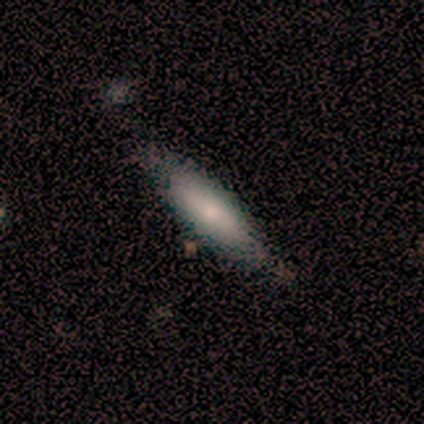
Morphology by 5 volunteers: This is clearly a featured or disk galaxy (80%). It is possibly viewed edge-on (50%, tied with no). Edge-on bulge: possibly none (50%, tied with rounded). Merging: likely minor disturbance (60%).